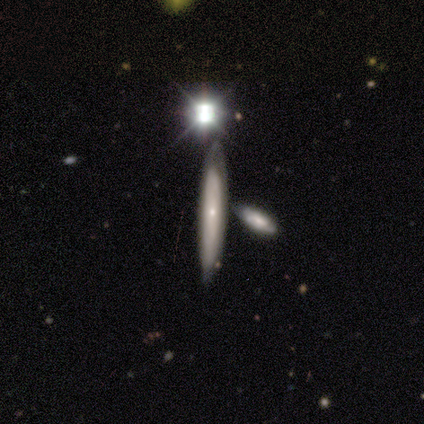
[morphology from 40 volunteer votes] Overall: featured or disk (65%). Edge-on disk: yes (58%; no 42%). Edge-on bulge: none (60%; rounded 40%). Merging: none (64%).